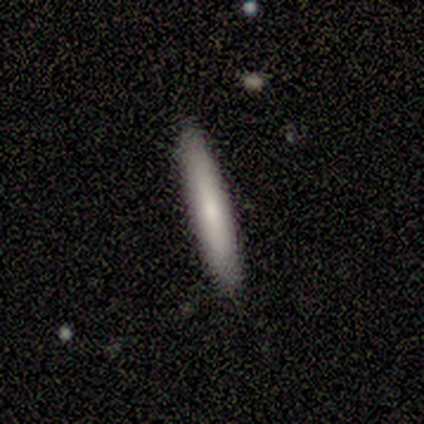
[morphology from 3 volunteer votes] Smooth or featured? 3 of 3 (100%) said smooth. How rounded? 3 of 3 (100%) said cigar-shaped. Merging? 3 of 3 (100%) said none.